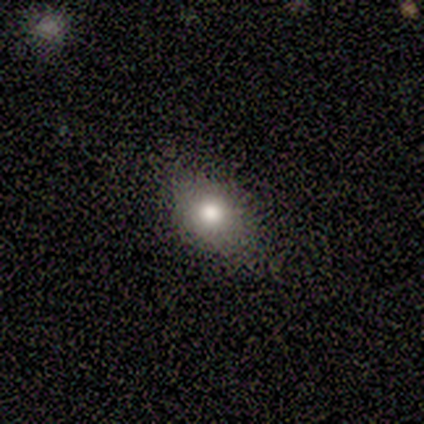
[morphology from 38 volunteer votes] smooth-or-featured: smooth: 84% | star or artifact: 13% | featured or disk: 3%
  how-rounded: in between: 66% | round: 28% | cigar-shaped: 6%
  merging: none: 73% | minor disturbance: 15% | major disturbance: 9% | merger: 3%